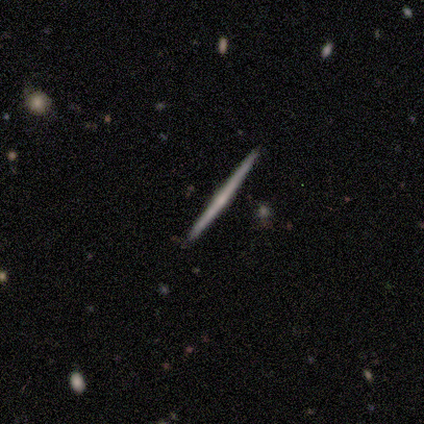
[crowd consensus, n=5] Overall: featured or disk (80%). Edge-on disk: yes (100%). Edge-on bulge: none (50%, tied with rounded). Merging: none (100%).